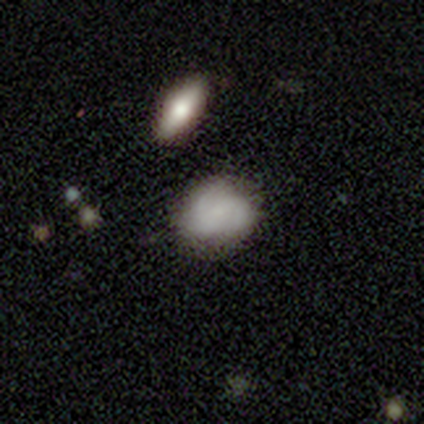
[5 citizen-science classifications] Smooth or featured? smooth (80%)
How rounded? round (100%)
Merging? none (60%)